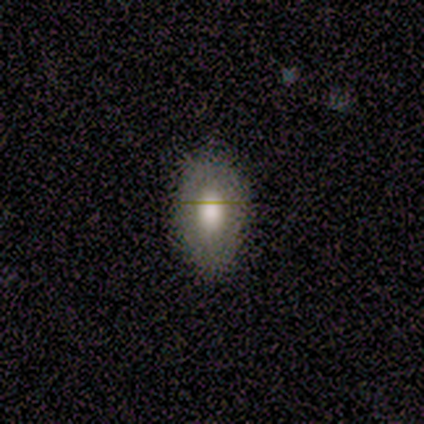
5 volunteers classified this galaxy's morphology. Smooth or featured?
  - smooth: 80% *
  - featured or disk: 20%
  - star or artifact: 0%
How rounded?
  - in between: 75% *
  - cigar-shaped: 25%
  - round: 0%
Merging?
  - none: 80% *
  - minor disturbance: 20%
  - major disturbance: 0%
  - merger: 0%